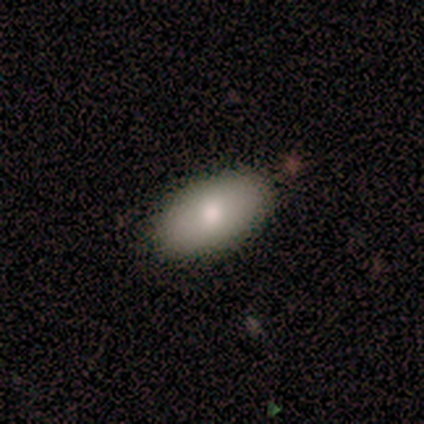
Smooth or featured? smooth (100%)
How rounded? in between (100%)
Merging? none (80%)